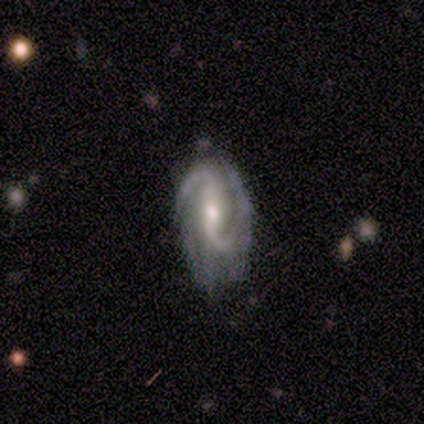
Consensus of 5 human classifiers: A featured or disk galaxy (100%) with a weak bar (50%), 2 (75%) loose (75%) spiral arms (100%) and a moderate central bulge (75%).

Vote fractions:
- Smooth or featured? featured or disk: 100% / smooth: 0% / star or artifact: 0%
- Edge-on disk? no: 80% / yes: 20%
- Bar? weak: 50% / strong: 25% / no: 25%
- Spiral arms? yes: 100% / no: 0%
- Spiral winding? loose: 75% / medium: 25% / tight: 0%
- Spiral arm count? 2: 75% / 3: 25% / 1: 0% / 4: 0% / more than 4: 0% / can't tell: 0%
- Bulge size? moderate: 75% / small: 25% / dominant: 0% / large: 0% / none: 0%
- Merging? none: 60% / minor disturbance: 40% / major disturbance: 0% / merger: 0%